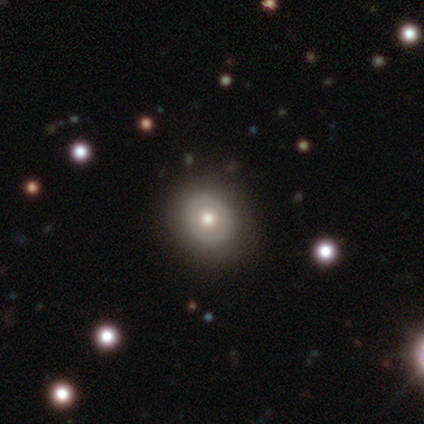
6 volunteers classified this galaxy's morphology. This appears to be a smooth galaxy with no disk features (50%, tied with featured or disk) that is round (67%). Merging: none (83%).